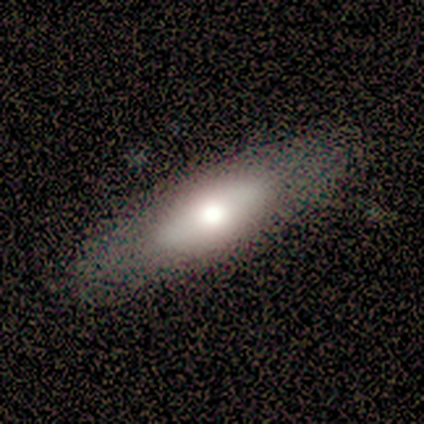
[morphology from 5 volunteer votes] Smooth or featured? smooth (80%)
How rounded? in between (75%)
Merging? none (80%)